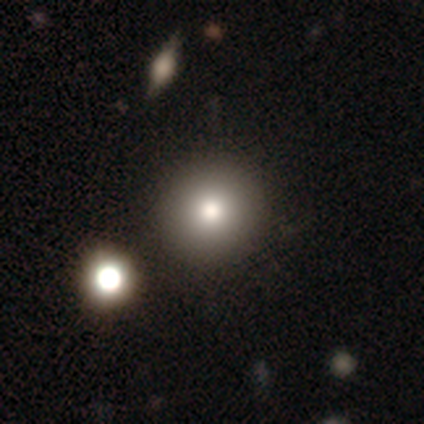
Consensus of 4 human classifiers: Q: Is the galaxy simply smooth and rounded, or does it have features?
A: smooth — 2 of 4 (50%, tied with featured or disk).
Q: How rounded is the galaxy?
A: round — 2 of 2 (100%).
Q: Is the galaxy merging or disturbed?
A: none — 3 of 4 (75%).